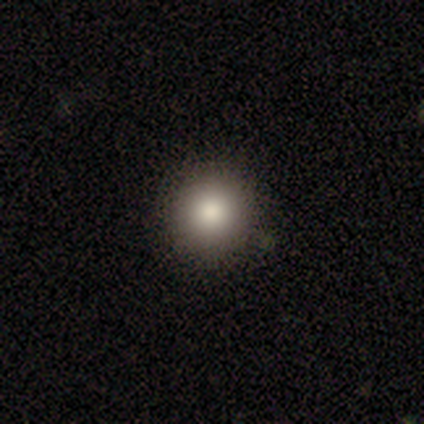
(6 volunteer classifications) Smooth or featured: smooth — 100%
How rounded: round — 100%
Merging: none — 100%